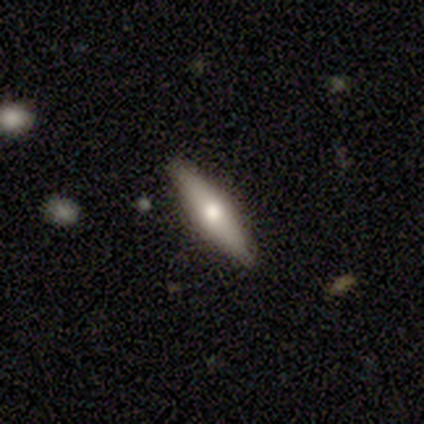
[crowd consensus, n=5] smooth-or-featured: featured or disk: 60% | smooth: 40% | star or artifact: 0%
  disk-edge-on: yes: 67% | no: 33%
    edge-on-bulge: rounded: 100% | boxy: 0% | none: 0%
  merging: none: 80% | minor disturbance: 20% | major disturbance: 0% | merger: 0%